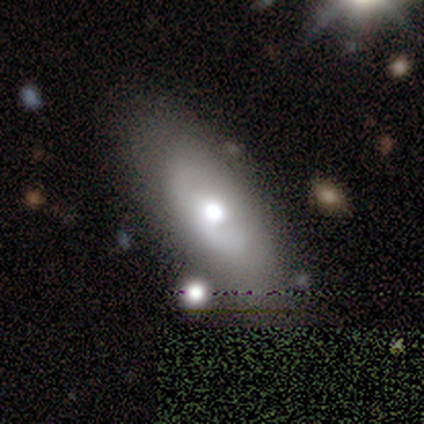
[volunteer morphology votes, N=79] A smooth galaxy with no disk features (51%) that is in between round and cigar-shaped (88%).

Vote fractions:
- Smooth or featured? smooth: 51% / featured or disk: 42% / star or artifact: 8%
- How rounded? in between: 88% / cigar-shaped: 10% / round: 2%
- Merging? none: 36% / minor disturbance: 11% / major disturbance: 4% / merger: 4%